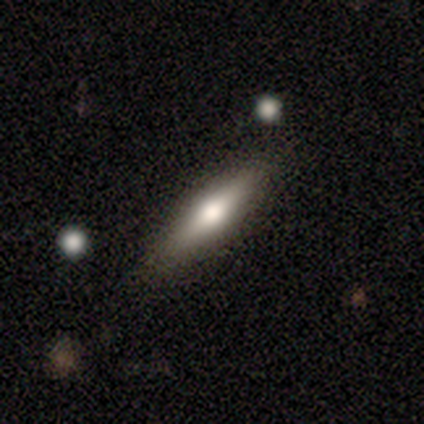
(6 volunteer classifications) A featured or disk galaxy (50%) viewed edge-on (100%) with a rounded central bulge (100%).

Vote fractions:
- Smooth or featured? featured or disk: 50% / smooth: 33% / star or artifact: 17%
- Edge-on disk? yes: 100% / no: 0%
- Edge-on bulge? rounded: 100% / boxy: 0% / none: 0%
- Merging? none: 100% / minor disturbance: 0% / major disturbance: 0% / merger: 0%